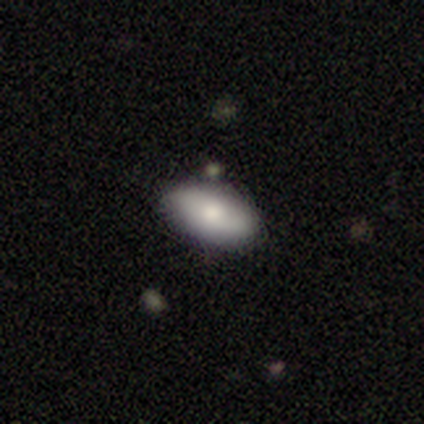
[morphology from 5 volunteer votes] Overall: smooth (80%). How rounded: in between (100%). Merging: none (60%; minor disturbance 40%).